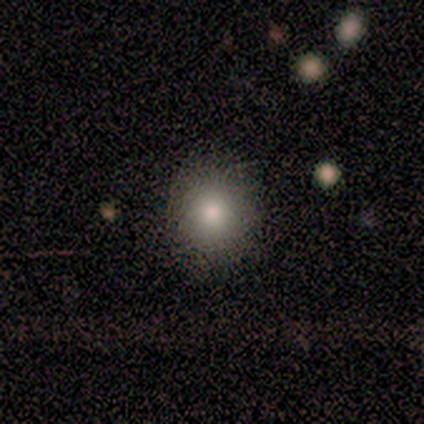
Smooth or featured? smooth (80%)
How rounded? round (75%)
Merging? none (100%)